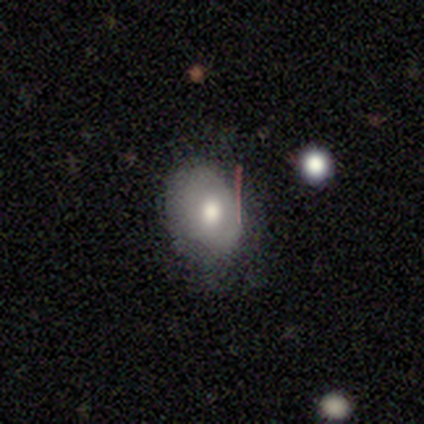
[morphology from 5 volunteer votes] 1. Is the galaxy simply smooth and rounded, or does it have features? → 100% smooth, 0% featured or disk, 0% star or artifact.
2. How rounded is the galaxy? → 60% round, 40% in between, 0% cigar-shaped.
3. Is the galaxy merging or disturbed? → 80% none, 20% major disturbance, 0% minor disturbance, 0% merger.